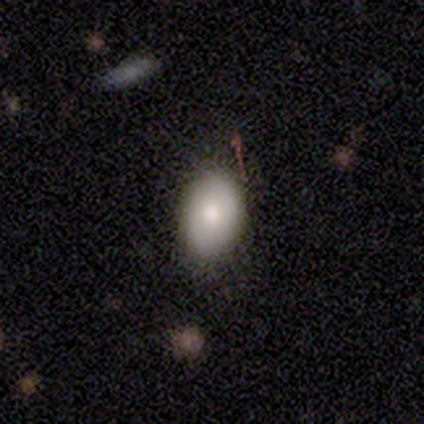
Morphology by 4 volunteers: A smooth galaxy with no disk features (100%) that is in between round and cigar-shaped (75%). Merging: none (75%).